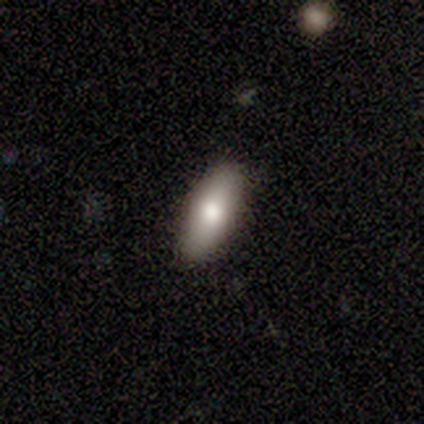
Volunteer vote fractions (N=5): Q: Smooth or featured?
A: smooth (100%)
Q: How rounded?
A: in between (100%)
Q: Merging?
A: none (100%)